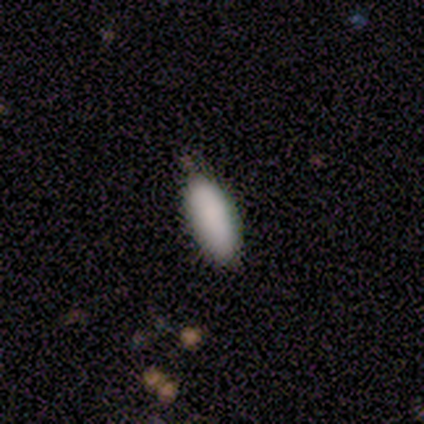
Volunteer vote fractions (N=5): Morphology: type=smooth (100%); roundness=in between (100%); merging=none (100%).